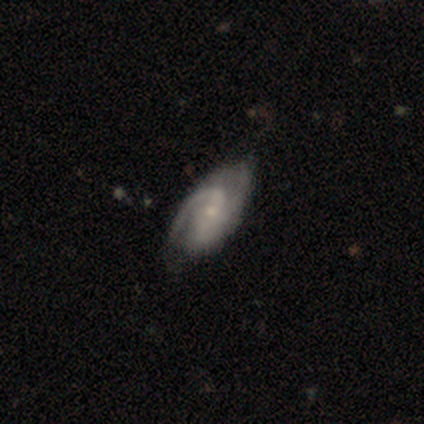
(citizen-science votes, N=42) Volunteers were most divided on "spiral winding" (2-way tie): tight: 39%, medium: 39%, loose: 22%. Remaining: edge-on disk — no (97%); spiral arms — yes (97%); smooth or featured — featured or disk (90%); merging — none (74%); bulge size — small (65%); spiral arm count — 2 (61%); bar — no (46%).